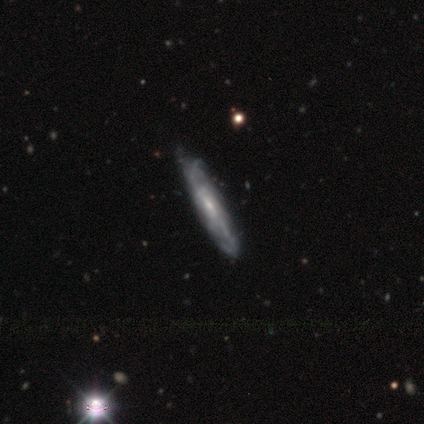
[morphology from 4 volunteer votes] Smooth or featured?
  - featured or disk: 75% *
  - star or artifact: 25%
  - smooth: 0%
Edge-on disk?
  - yes: 67% *
  - no: 33%
Edge-on bulge?
  - none: 100% *
  - boxy: 0%
  - rounded: 0%
Merging?
  - none: 100% *
  - minor disturbance: 0%
  - major disturbance: 0%
  - merger: 0%